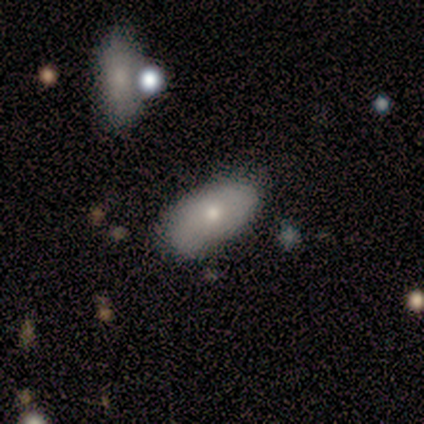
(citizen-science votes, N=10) Volunteers were most divided on "smooth or featured": smooth: 60%, featured or disk: 30%, star or artifact: 10%. More confident: how rounded — in between (100%); merging — none (89%).